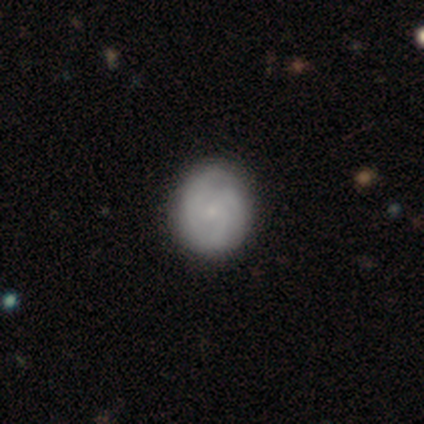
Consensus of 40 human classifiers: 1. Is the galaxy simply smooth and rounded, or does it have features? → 55% featured or disk, 42% smooth, 2% star or artifact.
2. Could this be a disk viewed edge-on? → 100% no, 0% yes.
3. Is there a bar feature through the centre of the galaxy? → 91% no, 9% weak, 0% strong.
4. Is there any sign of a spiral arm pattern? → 77% yes, 23% no.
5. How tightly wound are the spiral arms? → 76% tight, 24% medium, 0% loose.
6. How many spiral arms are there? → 59% 3, 29% can't tell, 12% 1, 0% 2, 0% 4, 0% more than 4.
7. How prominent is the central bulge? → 68% small, 23% moderate, 9% none, 0% dominant, 0% large.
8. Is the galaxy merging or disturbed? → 79% none, 10% minor disturbance, 3% major disturbance, 0% merger.